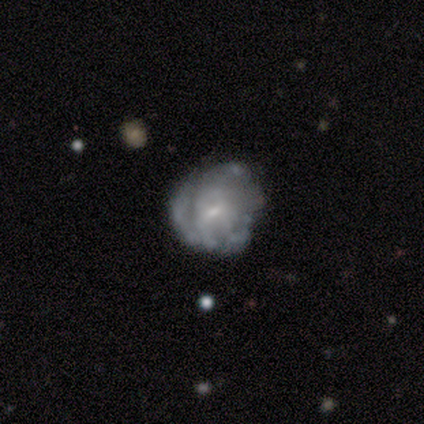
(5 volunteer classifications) Smooth or featured?
  - smooth: 60% *
  - featured or disk: 40%
  - star or artifact: 0%
How rounded?
  - round: 100% *
  - in between: 0%
  - cigar-shaped: 0%
Merging?
  - none: 40% * (tied)
  - major disturbance: 40% * (tied)
  - minor disturbance: 20%
  - merger: 0%